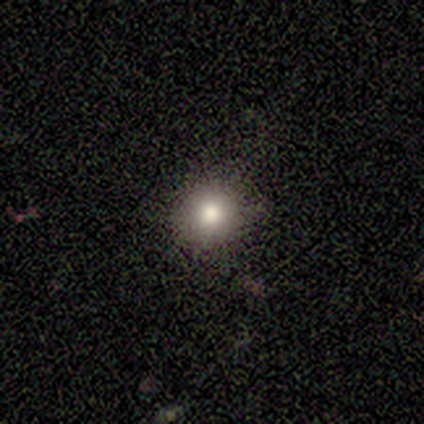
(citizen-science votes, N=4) Consensus on every question: smooth or featured — smooth (100%); how rounded — round (100%); merging — none (100%).